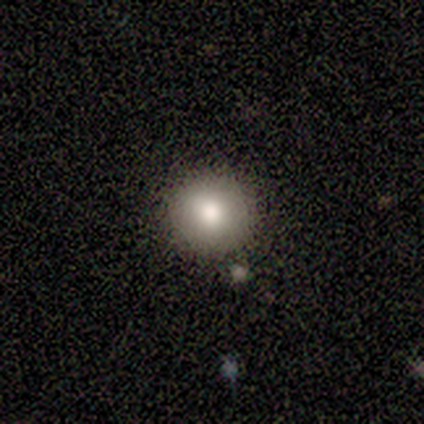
Morphology: type=smooth (100%); roundness=round (100%); merging=none (67%).